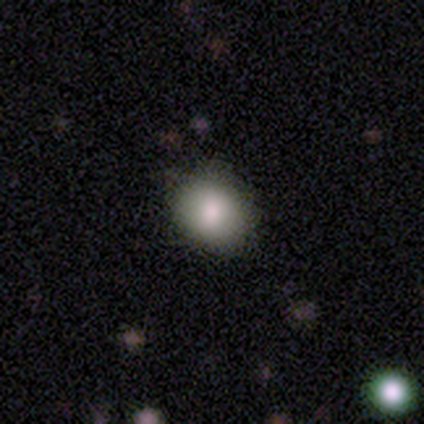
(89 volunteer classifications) Morphology: type=smooth (80%); roundness=round (56%); merging=none (82%).